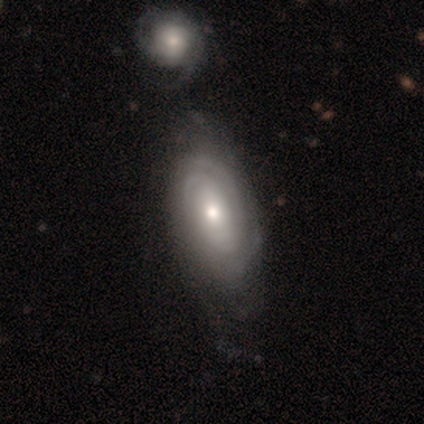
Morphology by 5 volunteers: Overall: featured or disk (100%). Edge-on disk: no (100%). Bar: no (80%). Spiral arms: yes (100%). Spiral arm count: 2 (40%, tied with can't tell). Spiral winding: tight (80%). Bulge size: moderate (60%; large 20%). Merging: none (80%).